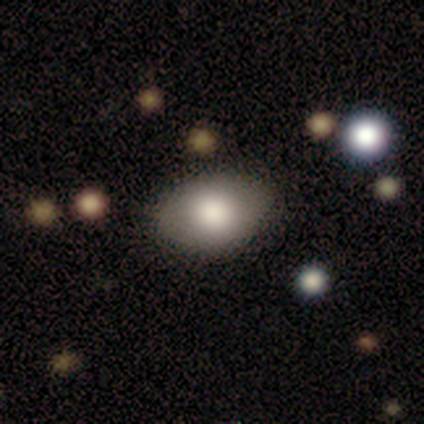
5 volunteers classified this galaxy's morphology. Smooth or featured? 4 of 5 (80%) said smooth. How rounded? 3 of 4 (75%) said in between. Merging? 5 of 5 (100%) said none.